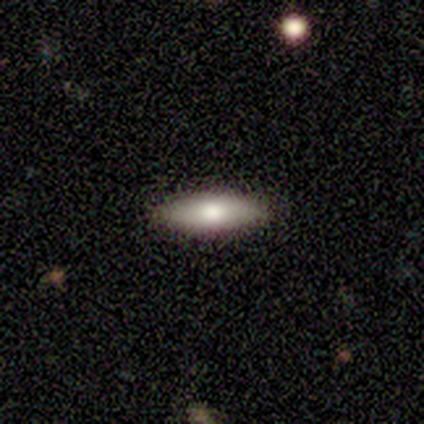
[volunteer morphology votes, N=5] Q: Smooth or featured?
A: smooth (60%); runner-up: featured or disk (40%)
Q: How rounded?
A: in between (100%)
Q: Merging?
A: none (100%)